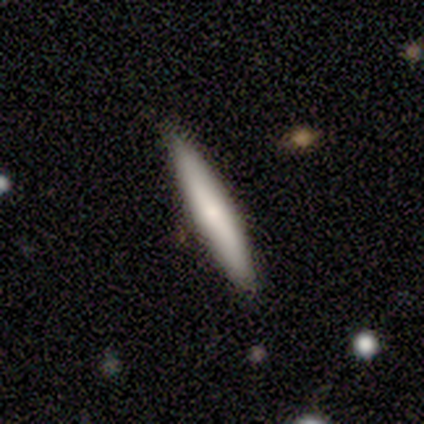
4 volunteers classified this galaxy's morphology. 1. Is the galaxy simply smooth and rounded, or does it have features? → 75% smooth, 25% featured or disk, 0% star or artifact.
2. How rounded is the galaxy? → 100% cigar-shaped, 0% round, 0% in between.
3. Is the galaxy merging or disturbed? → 100% none, 0% minor disturbance, 0% major disturbance, 0% merger.